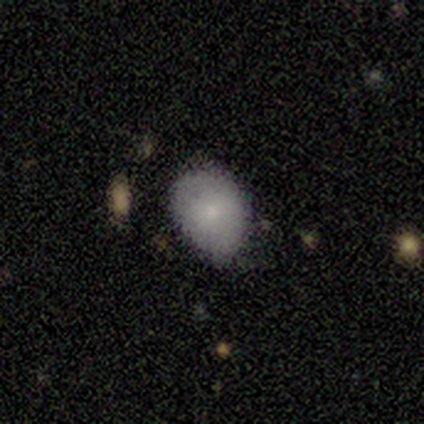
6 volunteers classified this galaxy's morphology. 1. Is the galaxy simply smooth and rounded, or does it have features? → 83% smooth, 17% featured or disk, 0% star or artifact.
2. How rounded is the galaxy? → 100% in between, 0% round, 0% cigar-shaped.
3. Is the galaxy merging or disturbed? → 50% none (tied), 50% minor disturbance (tied), 0% major disturbance, 0% merger.